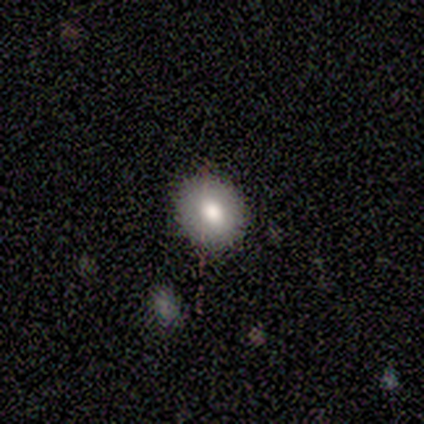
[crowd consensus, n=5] Smooth or featured: smooth — 100%
How rounded: round — 80% (in between — 20%)
Merging: none — 80% (minor disturbance — 20%)